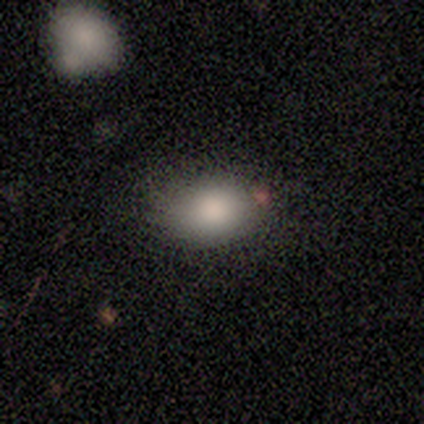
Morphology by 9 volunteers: This appears to be a smooth galaxy with no disk features (89%) that is in between round and cigar-shaped (88%). Merging: none (89%).